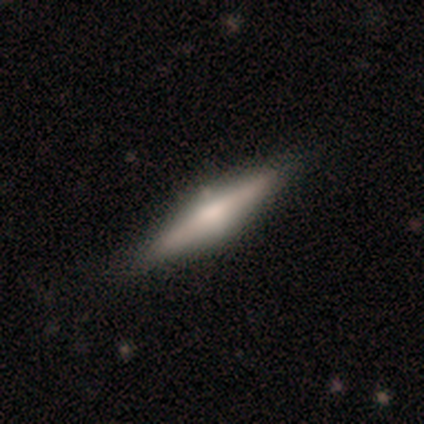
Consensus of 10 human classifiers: smooth_or_featured: featured or disk (p=0.90) [alt: smooth p=0.10]
disk_edge_on: yes (p=0.89) [alt: no p=0.11]
edge_on_bulge: rounded (p=1.00)
merging: none (p=0.90) [alt: minor disturbance p=0.10]